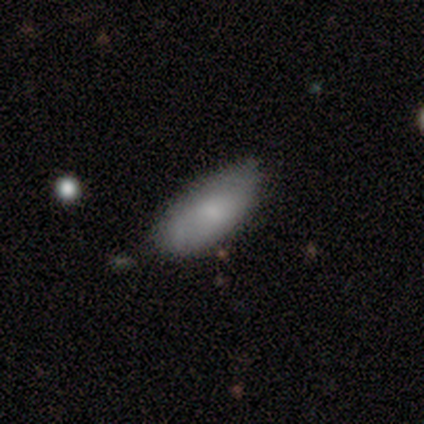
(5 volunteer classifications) Smooth or featured? 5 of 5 (100%) said smooth. How rounded? 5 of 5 (100%) said in between. Merging? 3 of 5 (60%) said none.